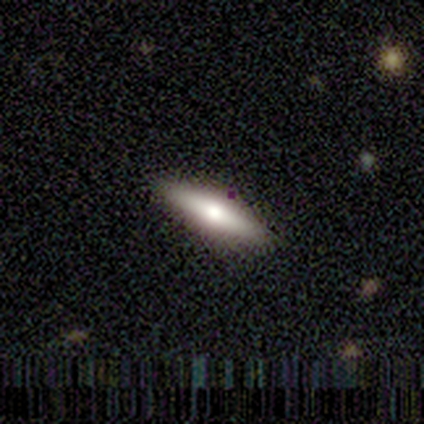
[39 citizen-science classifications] This is possibly a smooth galaxy (51%). How rounded: likely cigar-shaped (65%). Merging: clearly none (94%).